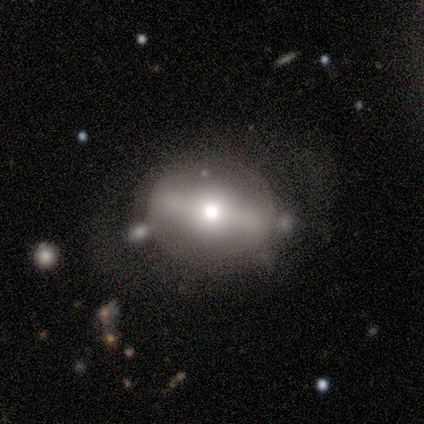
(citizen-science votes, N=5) smooth_or_featured: featured or disk (p=0.80) [alt: smooth p=0.20]
disk_edge_on: no (p=1.00)
bar: strong (p=0.50) [tied with: weak p=0.50]
has_spiral_arms: no (p=1.00)
bulge_size: moderate (p=0.75) [alt: small p=0.25]
merging: none (p=0.60) [alt: minor disturbance p=0.40]